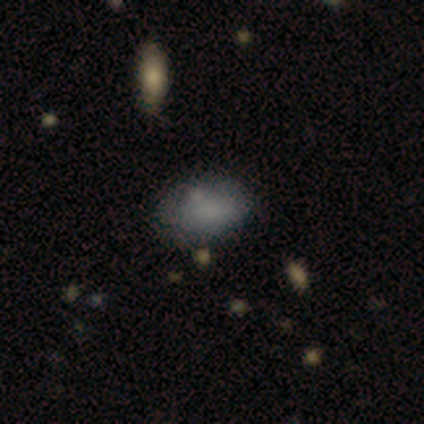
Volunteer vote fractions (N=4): Smooth or featured? 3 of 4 (75%) said smooth. How rounded? 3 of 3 (100%) said in between. Merging? 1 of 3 (33%, tied with minor disturbance and merger) said none.